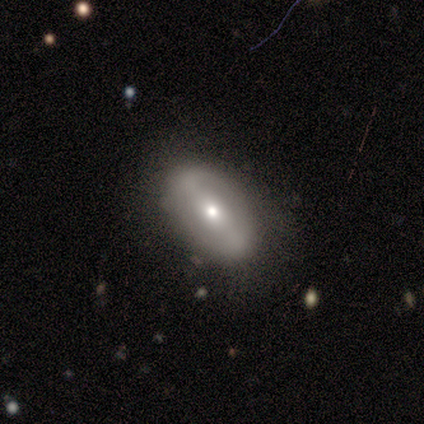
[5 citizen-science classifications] A featured or disk galaxy (60%) with a weak bar (67%), 2 (100%) loose (67%) spiral arms (100%) and a small central bulge (67%).

Vote fractions:
- Smooth or featured? featured or disk: 60% / smooth: 20% / star or artifact: 20%
- Edge-on disk? no: 100% / yes: 0%
- Bar? weak: 67% / strong: 33% / no: 0%
- Spiral arms? yes: 100% / no: 0%
- Spiral winding? loose: 67% / medium: 33% / tight: 0%
- Spiral arm count? 2: 100% / 1: 0% / 3: 0% / 4: 0% / more than 4: 0% / can't tell: 0%
- Bulge size? small: 67% / moderate: 33% / dominant: 0% / large: 0% / none: 0%
- Merging? none: 50% (tied) / minor disturbance: 50% (tied) / major disturbance: 0% / merger: 0%